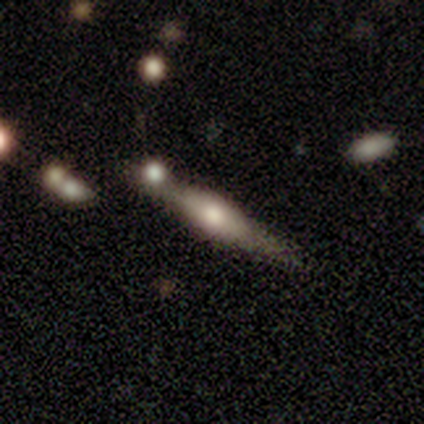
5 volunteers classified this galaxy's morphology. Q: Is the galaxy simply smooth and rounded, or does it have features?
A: smooth — 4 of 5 (80%).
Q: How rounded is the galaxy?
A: cigar-shaped — 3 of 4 (75%).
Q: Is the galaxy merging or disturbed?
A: none — 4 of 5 (80%).